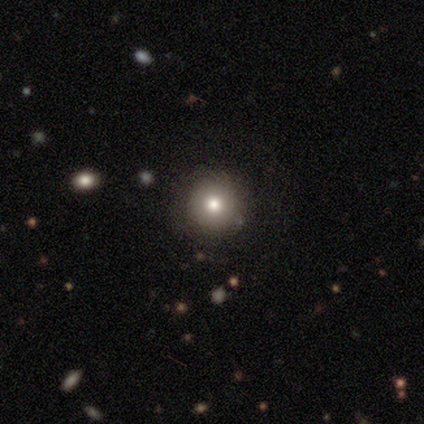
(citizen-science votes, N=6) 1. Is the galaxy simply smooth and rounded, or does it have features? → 83% smooth, 17% featured or disk, 0% star or artifact.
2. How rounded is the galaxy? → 100% round, 0% in between, 0% cigar-shaped.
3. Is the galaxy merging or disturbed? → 67% none, 17% minor disturbance, 17% merger, 0% major disturbance.